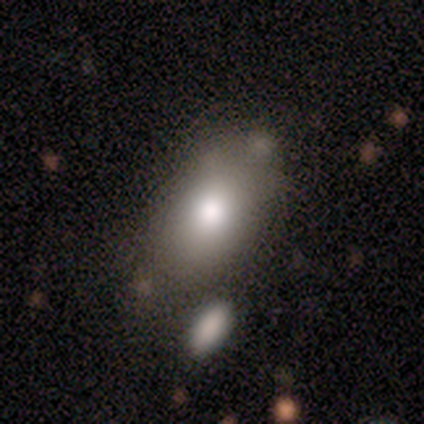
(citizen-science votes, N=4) Smooth or featured? 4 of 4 (100%) said smooth. How rounded? 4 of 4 (100%) said in between. Merging? 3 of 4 (75%) said none.